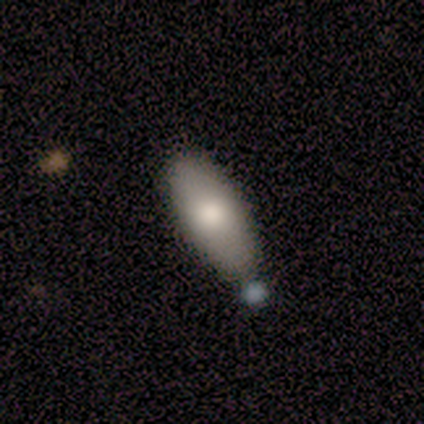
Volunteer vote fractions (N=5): smooth 100%, featured or disk 0%, star or artifact 0%. Down the decision tree: how rounded — in between (100%); merging — none (80%).